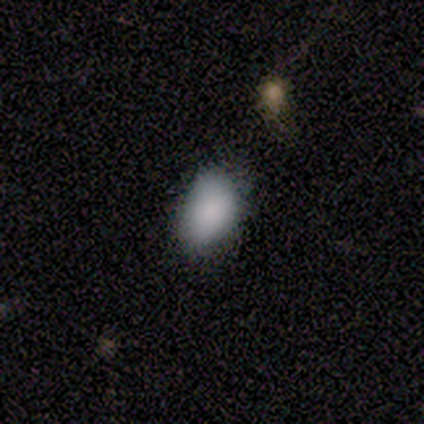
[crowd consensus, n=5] Smooth or featured?
  - smooth: 100% *
  - featured or disk: 0%
  - star or artifact: 0%
How rounded?
  - in between: 80% *
  - round: 20%
  - cigar-shaped: 0%
Merging?
  - none: 60% *
  - minor disturbance: 40%
  - major disturbance: 0%
  - merger: 0%